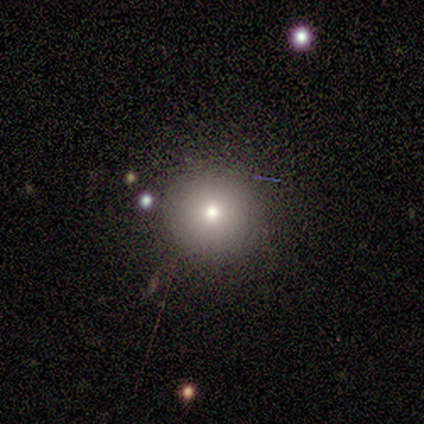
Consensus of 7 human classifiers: This appears to be a star or artifact, not a galaxy (57%).